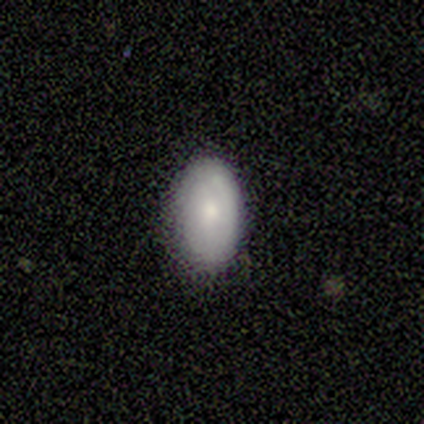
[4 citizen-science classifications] Smooth or featured: smooth — 50% (tied with featured or disk — 50%)
How rounded: in between — 100%
Merging: none — 50% (tied with minor disturbance — 50%)